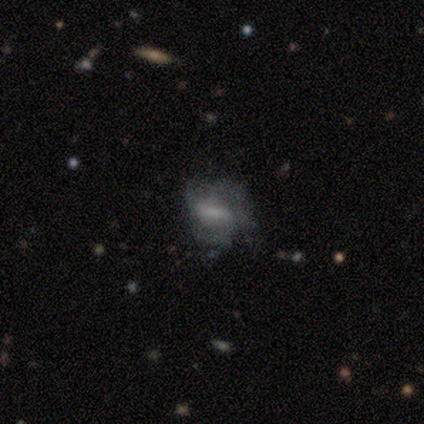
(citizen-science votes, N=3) Q: Smooth or featured?
A: featured or disk (67%); runner-up: smooth (33%)
Q: Edge-on disk?
A: no (100%)
Q: Bar?
A: strong (100%)
Q: Spiral arms?
A: yes (100%)
Q: Spiral winding?
A: medium (100%)
Q: Spiral arm count?
A: 2 (50%); tied with: 4 (50%)
Q: Bulge size?
A: large (50%); tied with: small (50%)
Q: Merging?
A: minor disturbance (67%); runner-up: none (33%)